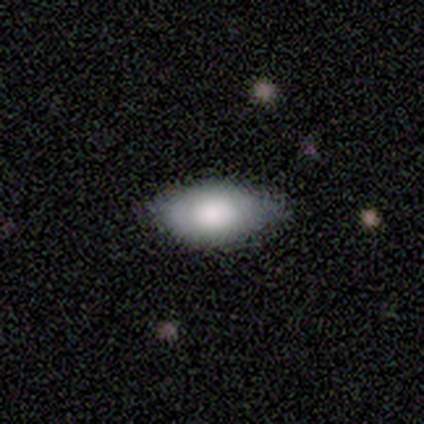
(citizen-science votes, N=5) Morphology: type=smooth (80%); roundness=in between (100%); merging=none (50%, tied with minor disturbance).